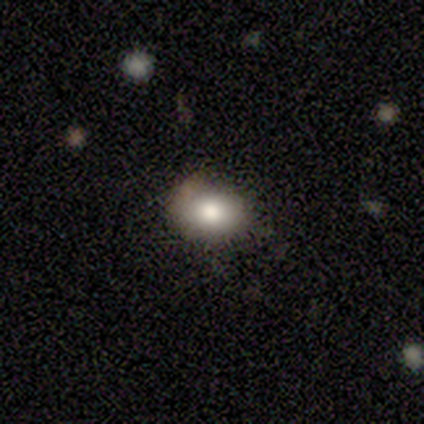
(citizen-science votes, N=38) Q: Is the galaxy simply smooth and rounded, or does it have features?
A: smooth — 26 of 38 (68%).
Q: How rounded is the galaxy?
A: in between — 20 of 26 (77%).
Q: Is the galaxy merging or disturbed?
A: none — 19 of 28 (68%).